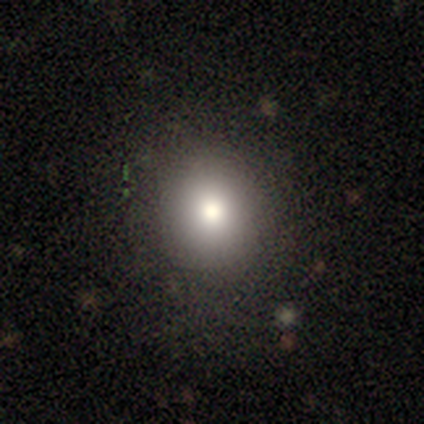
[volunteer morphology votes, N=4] Overall: smooth (75%). How rounded: round (100%). Merging: none (100%).